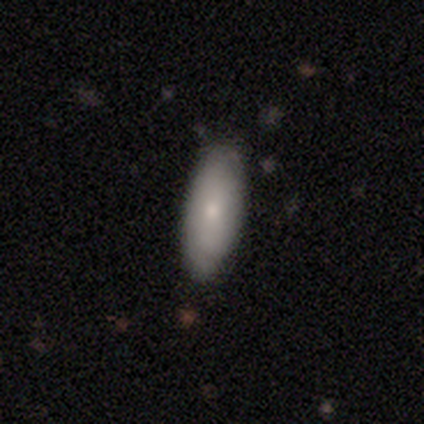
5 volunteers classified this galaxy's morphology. This appears to be a smooth galaxy with no disk features (100%) that is in between round and cigar-shaped (80%). Merging: none (80%).